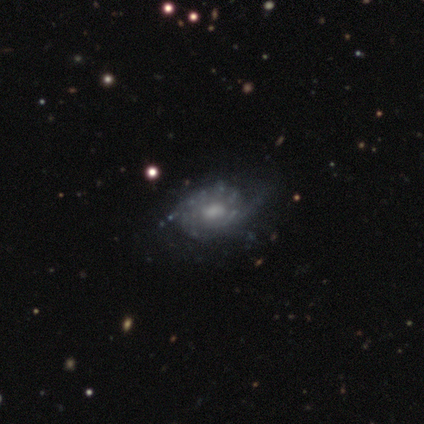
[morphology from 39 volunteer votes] This is clearly a featured or disk galaxy (92%). It is clearly not viewed edge-on (94%). Bar: likely no (71%). Spiral arm pattern: clearly yes (88%). Spiral arm count: marginally 2 (43%). Spiral winding: likely tight (77%). Central bulge: possibly moderate (56%). Merging: possibly none (49%).